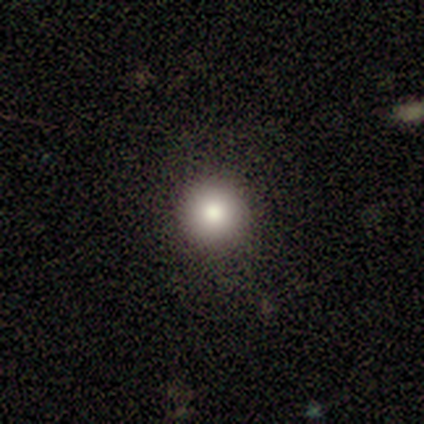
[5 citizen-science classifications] This appears to be a smooth galaxy with no disk features (80%) that is round (100%). Merging: none (100%).